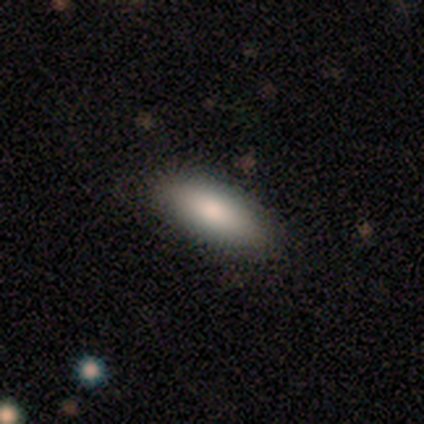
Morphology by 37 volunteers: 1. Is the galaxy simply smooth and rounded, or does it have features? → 78% smooth, 14% star or artifact, 8% featured or disk.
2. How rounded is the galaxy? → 76% in between, 24% cigar-shaped, 0% round.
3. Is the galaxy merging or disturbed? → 91% none, 9% minor disturbance, 0% major disturbance, 0% merger.